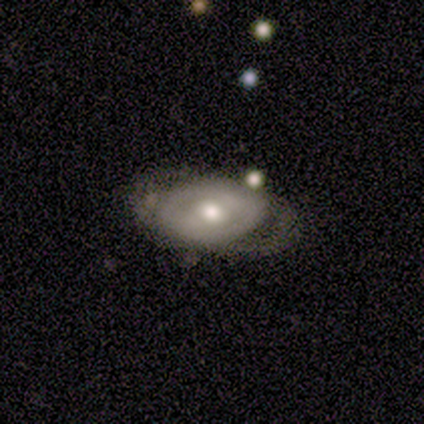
Q: Smooth or featured?
A: featured or disk (100%)
Q: Edge-on disk?
A: no (75%); runner-up: yes (25%)
Q: Bar?
A: no (67%); runner-up: strong (33%)
Q: Spiral arms?
A: yes (100%)
Q: Spiral winding?
A: medium (67%); runner-up: tight (33%)
Q: Spiral arm count?
A: 2 (67%); runner-up: can't tell (33%)
Q: Bulge size?
A: moderate (67%); runner-up: small (33%)
Q: Merging?
A: none (100%)